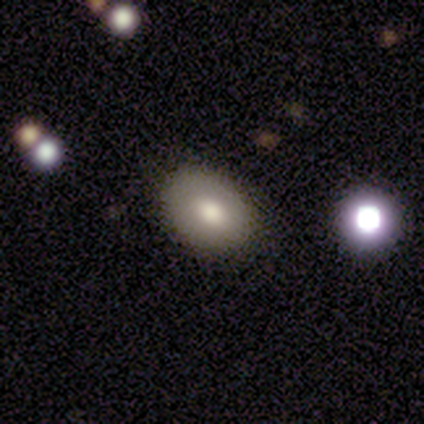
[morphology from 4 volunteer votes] Overall: smooth (100%). How rounded: in between (100%). Merging: none (75%).